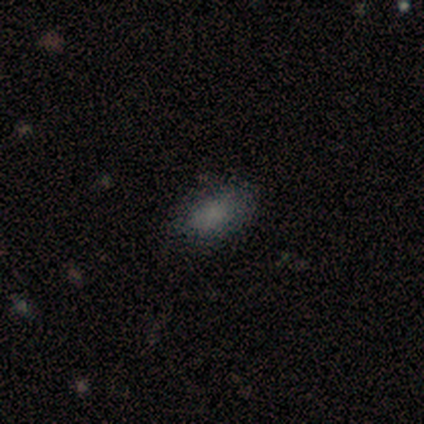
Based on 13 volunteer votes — A smooth galaxy with no disk features (92%) that is in between round and cigar-shaped (100%).

Vote fractions:
- Smooth or featured? smooth: 92% / star or artifact: 8% / featured or disk: 0%
- How rounded? in between: 100% / round: 0% / cigar-shaped: 0%
- Merging? none: 58% / minor disturbance: 42% / major disturbance: 0% / merger: 0%